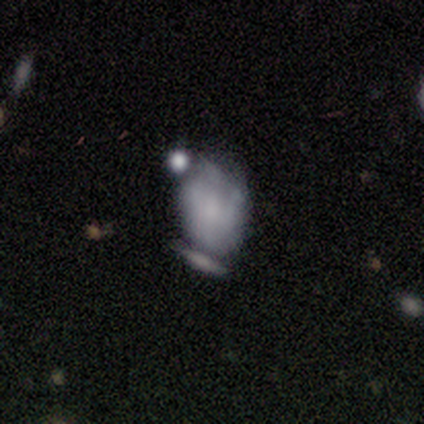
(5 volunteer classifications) smooth 40% (tied), featured or disk 40% (tied), star or artifact 20%. Down the decision tree: how rounded — in between (100%); merging — none (50%, tied with major disturbance).